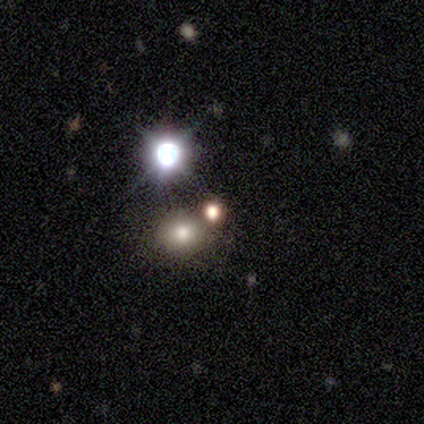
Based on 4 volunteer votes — Smooth or featured? smooth (50%, tied with star or artifact)
How rounded? round (100%)
Merging? none (100%)